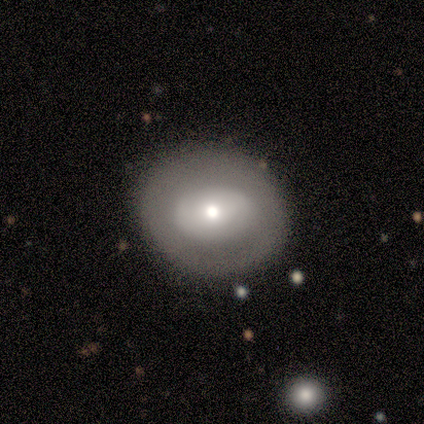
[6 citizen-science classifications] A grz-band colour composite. It shows a smooth galaxy with no disk features (67%) that is round (75%). Merging: none (83%).